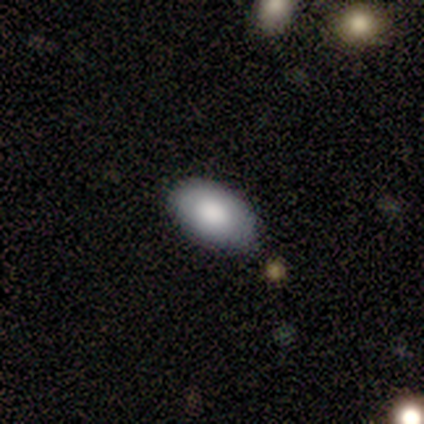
smooth_or_featured: smooth (p=1.00)
how_rounded: in between (p=0.80) [alt: round p=0.20]
merging: none (p=0.80) [alt: minor disturbance p=0.20]